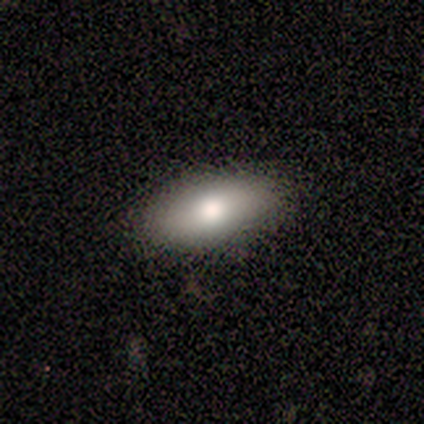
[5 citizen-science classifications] smooth-or-featured: smooth: 60% | featured or disk: 40% | star or artifact: 0%
  how-rounded: in between: 100% | round: 0% | cigar-shaped: 0%
  merging: none: 100% | minor disturbance: 0% | major disturbance: 0% | merger: 0%